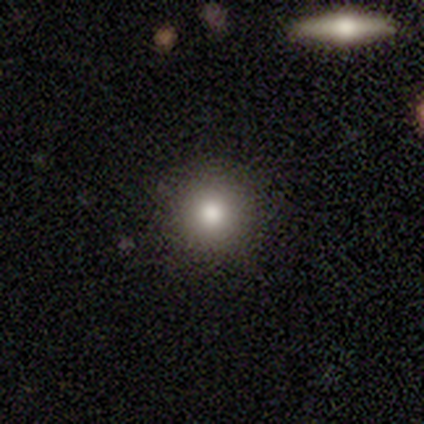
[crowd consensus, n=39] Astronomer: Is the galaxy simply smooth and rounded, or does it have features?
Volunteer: smooth — 77%.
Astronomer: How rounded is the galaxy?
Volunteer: round — 93%.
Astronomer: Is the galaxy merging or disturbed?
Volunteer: none — 88%.